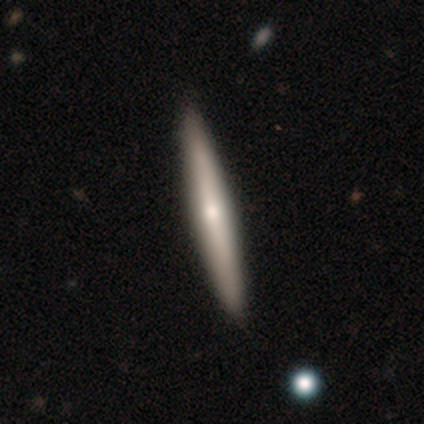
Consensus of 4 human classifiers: A featured or disk galaxy (100%) viewed edge-on (100%) with a rounded central bulge (100%). Merging: none (75%).